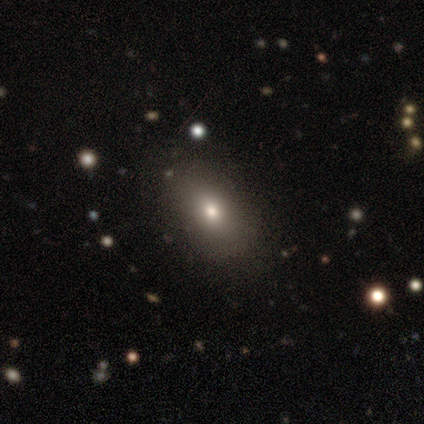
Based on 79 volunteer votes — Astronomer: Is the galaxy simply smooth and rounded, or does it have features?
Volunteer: smooth — 78%.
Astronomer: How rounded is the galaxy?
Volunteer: in between — 89%.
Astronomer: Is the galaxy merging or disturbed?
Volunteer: none — 48%.